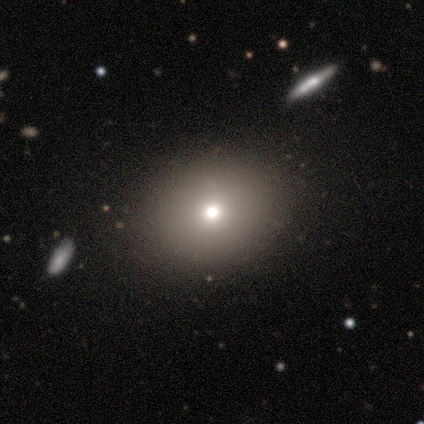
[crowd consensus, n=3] A smooth galaxy with no disk features (67%) that is round (100%).

Vote fractions:
- Smooth or featured? smooth: 67% / star or artifact: 33% / featured or disk: 0%
- How rounded? round: 100% / in between: 0% / cigar-shaped: 0%
- Merging? none: 100% / minor disturbance: 0% / major disturbance: 0% / merger: 0%